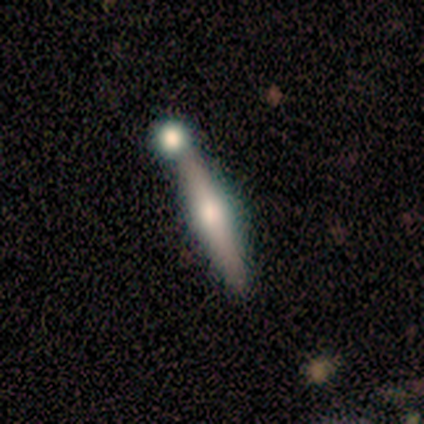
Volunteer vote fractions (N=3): A featured or disk galaxy (67%) viewed edge-on (100%) with a rounded central bulge (100%).

Vote fractions:
- Smooth or featured? featured or disk: 67% / smooth: 33% / star or artifact: 0%
- Edge-on disk? yes: 100% / no: 0%
- Edge-on bulge? rounded: 100% / boxy: 0% / none: 0%
- Merging? none: 100% / minor disturbance: 0% / major disturbance: 0% / merger: 0%